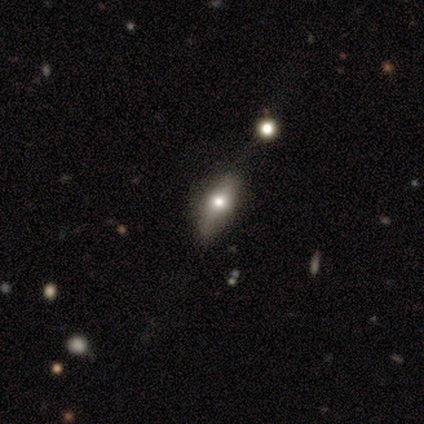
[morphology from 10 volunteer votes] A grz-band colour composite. It shows a smooth galaxy with no disk features (50%, tied with featured or disk) that is in between round and cigar-shaped (80%). Merging: none (60%).